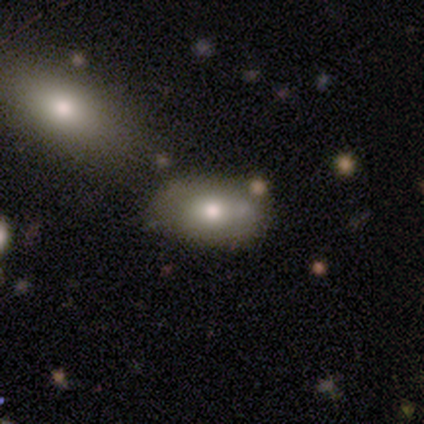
This appears to be a smooth galaxy with no disk features (50%, tied with featured or disk) that is in between round and cigar-shaped (100%). Merging: none (50%).